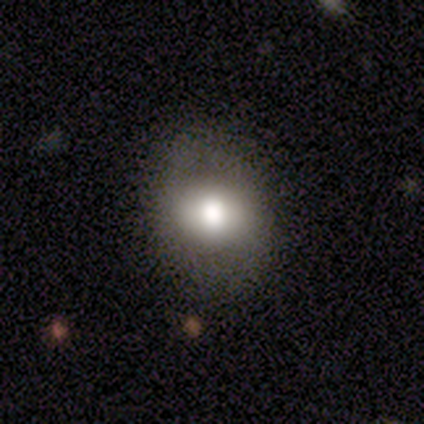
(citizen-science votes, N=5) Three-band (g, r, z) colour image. It shows a smooth galaxy with no disk features (80%) that is in between round and cigar-shaped (75%). Merging: none (60%).